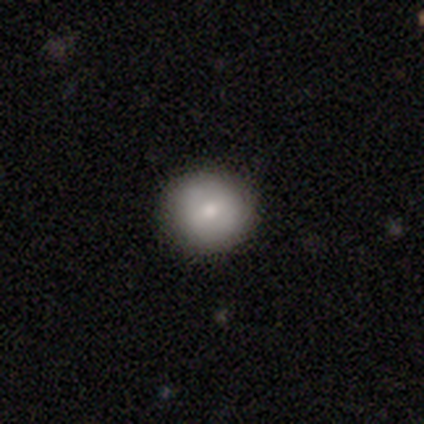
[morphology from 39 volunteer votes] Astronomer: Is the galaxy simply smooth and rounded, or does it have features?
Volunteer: smooth — 85%.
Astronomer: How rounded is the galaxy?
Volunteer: round — 94%.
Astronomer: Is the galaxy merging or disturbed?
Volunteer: none — 97%.